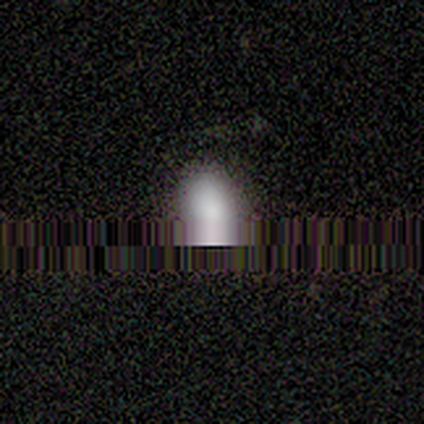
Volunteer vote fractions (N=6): Volunteers were most divided on "smooth or featured" (2-way tie): smooth: 50%, star or artifact: 50%, featured or disk: 0%. More confident: how rounded — in between (100%); merging — none (67%).